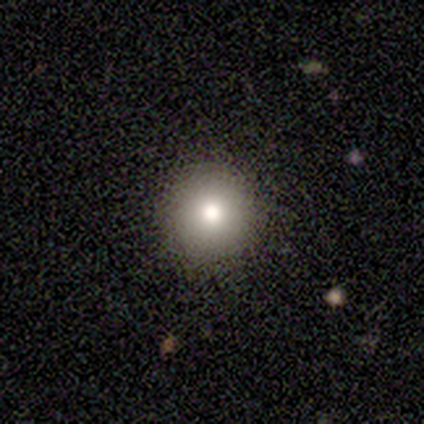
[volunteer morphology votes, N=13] smooth-or-featured: smooth: 77% | featured or disk: 15% | star or artifact: 8%
  how-rounded: round: 100% | in between: 0% | cigar-shaped: 0%
  merging: none: 100% | minor disturbance: 0% | major disturbance: 0% | merger: 0%